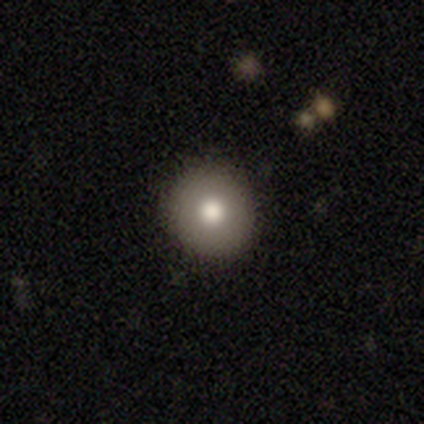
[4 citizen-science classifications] Smooth or featured? 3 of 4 (75%) said featured or disk. Edge-on disk? 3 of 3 (100%) said no. Bar? 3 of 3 (100%) said no. Spiral arms? 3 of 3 (100%) said no. Bulge size? 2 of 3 (67%) said moderate. Merging? 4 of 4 (100%) said none.